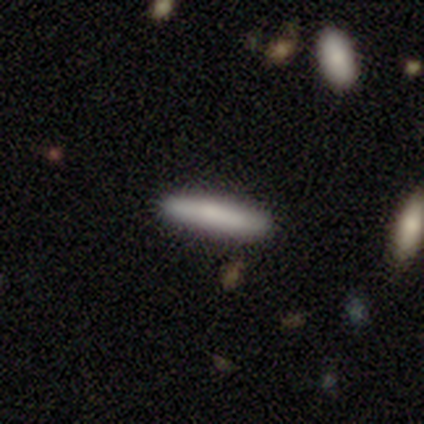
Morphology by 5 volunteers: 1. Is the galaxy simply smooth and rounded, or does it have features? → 80% smooth, 20% featured or disk, 0% star or artifact.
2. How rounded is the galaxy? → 100% cigar-shaped, 0% round, 0% in between.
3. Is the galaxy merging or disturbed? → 80% none, 20% minor disturbance, 0% major disturbance, 0% merger.